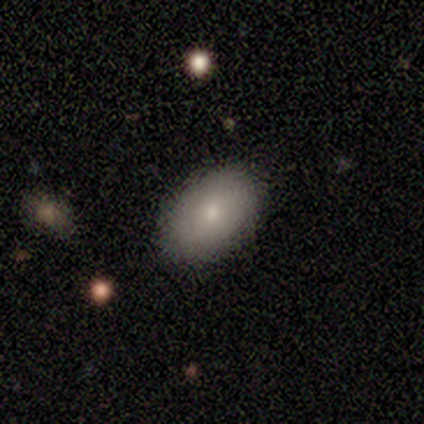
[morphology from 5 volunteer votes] smooth_or_featured: smooth (p=0.80) [alt: featured or disk p=0.20]
how_rounded: in between (p=1.00)
merging: none (p=0.80) [alt: major disturbance p=0.20]